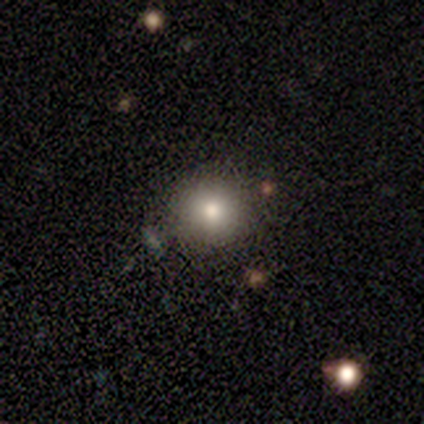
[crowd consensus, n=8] Overall: smooth (100%). How rounded: round (100%). Merging: none (75%).